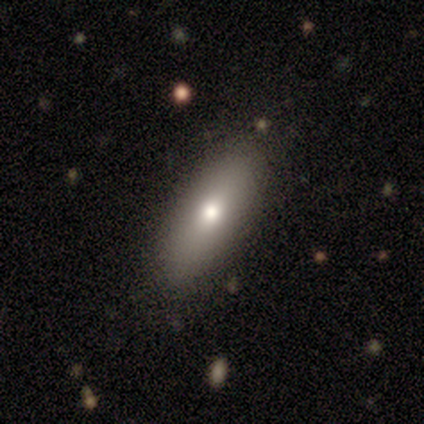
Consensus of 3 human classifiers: Volunteers were most divided on "how rounded": in between: 67%, cigar-shaped: 33%, round: 0%. More confident: smooth or featured — smooth (100%); merging — none (67%).